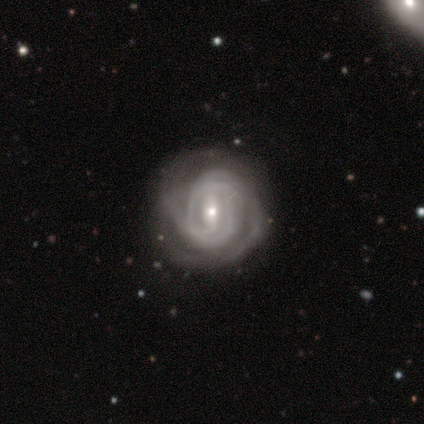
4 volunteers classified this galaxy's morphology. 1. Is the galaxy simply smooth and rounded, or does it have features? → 75% featured or disk, 25% smooth, 0% star or artifact.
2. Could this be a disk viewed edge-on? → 100% no, 0% yes.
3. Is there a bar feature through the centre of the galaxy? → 67% strong, 33% weak, 0% no.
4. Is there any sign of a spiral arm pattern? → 100% yes, 0% no.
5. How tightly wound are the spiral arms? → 67% tight, 33% medium, 0% loose.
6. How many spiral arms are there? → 67% 2, 33% can't tell, 0% 1, 0% 3, 0% 4, 0% more than 4.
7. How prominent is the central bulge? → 67% small, 33% moderate, 0% dominant, 0% large, 0% none.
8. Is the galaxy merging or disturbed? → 75% none, 25% minor disturbance, 0% major disturbance, 0% merger.